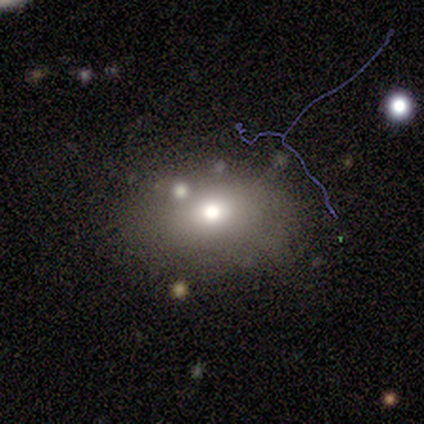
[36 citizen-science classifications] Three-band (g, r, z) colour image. It shows a smooth galaxy with no disk features (78%) that is in between round and cigar-shaped (75%). Merging: none (59%).